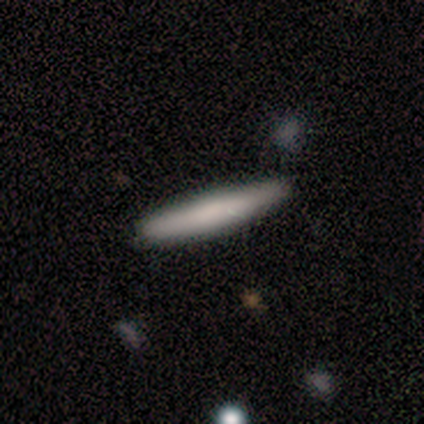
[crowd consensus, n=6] Smooth or featured? smooth (83%)
How rounded? cigar-shaped (100%)
Merging? none (100%)